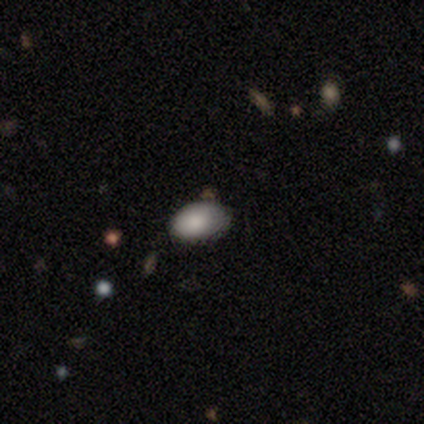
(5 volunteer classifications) A smooth galaxy with no disk features (100%) that is in between round and cigar-shaped (100%). Merging: none (80%).